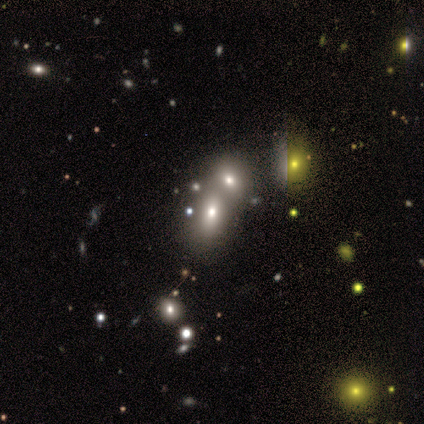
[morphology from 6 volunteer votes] Smooth or featured? star or artifact (50%)